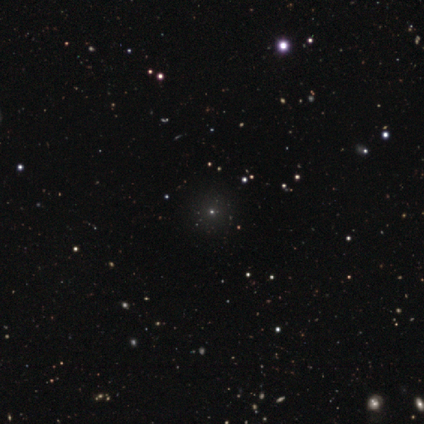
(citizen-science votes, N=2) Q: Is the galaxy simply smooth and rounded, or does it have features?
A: star or artifact — 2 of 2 (100%).